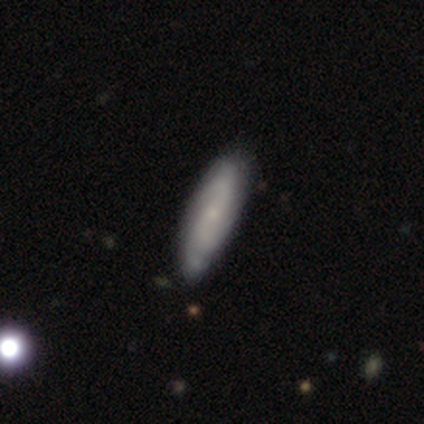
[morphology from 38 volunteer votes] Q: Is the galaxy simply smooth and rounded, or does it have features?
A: featured or disk — 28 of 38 (74%).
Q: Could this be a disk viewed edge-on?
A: no — 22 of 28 (79%).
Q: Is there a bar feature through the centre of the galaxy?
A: no — 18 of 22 (82%).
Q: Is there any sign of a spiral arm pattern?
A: yes — 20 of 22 (91%).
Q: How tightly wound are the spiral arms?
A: medium — 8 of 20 (40%).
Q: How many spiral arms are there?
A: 2 — 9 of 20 (45%).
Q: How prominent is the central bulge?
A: small — 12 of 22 (55%).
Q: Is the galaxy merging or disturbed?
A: none — 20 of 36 (56%).